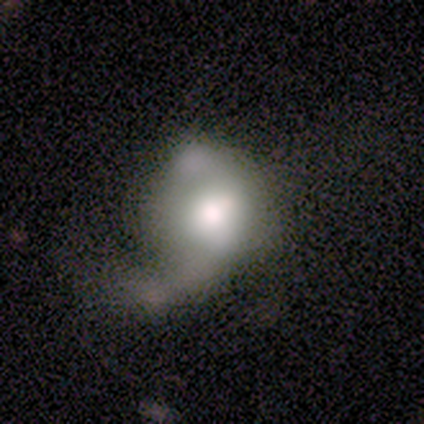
This is clearly a smooth galaxy (80%). How rounded: likely in between (75%). Merging: clearly major disturbance (100%).